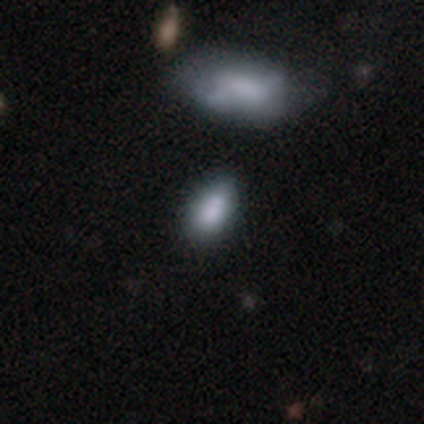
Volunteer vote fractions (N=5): Volunteers were most divided on "merging": none: 75%, minor disturbance: 25%, major disturbance: 0%, merger: 0%. More confident: how rounded — in between (100%); smooth or featured — smooth (80%).